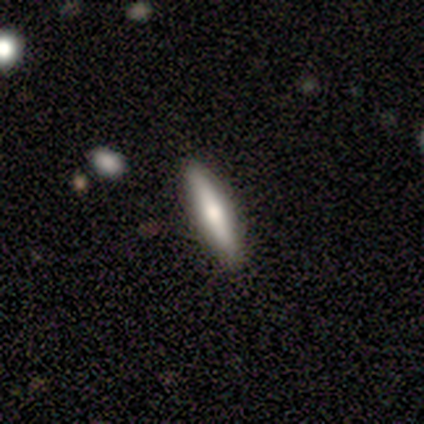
Volunteers were most divided on "smooth or featured": featured or disk: 75%, smooth: 25%, star or artifact: 0%. More confident: edge-on disk — yes (100%); edge-on bulge — rounded (100%); merging — none (100%).